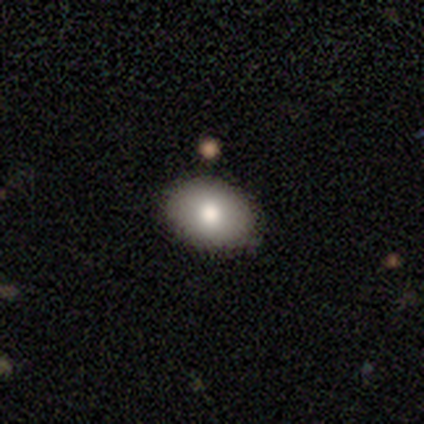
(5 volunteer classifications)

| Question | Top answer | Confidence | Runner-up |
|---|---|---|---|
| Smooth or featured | smooth | 80% | star or artifact (20%) |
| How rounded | in between | 75% | round (25%) |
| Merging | none | 100% | — |